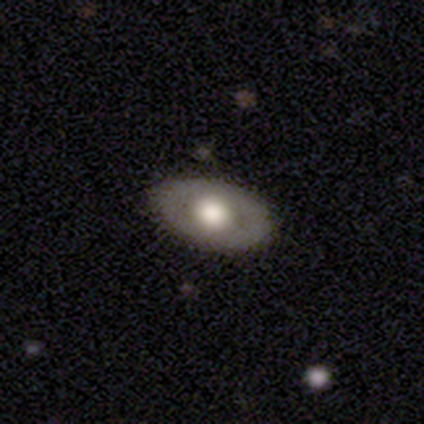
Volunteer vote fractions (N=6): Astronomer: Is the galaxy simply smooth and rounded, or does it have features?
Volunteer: smooth — 50% (runner-up: featured or disk, 33%).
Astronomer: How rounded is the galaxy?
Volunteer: in between — 100%.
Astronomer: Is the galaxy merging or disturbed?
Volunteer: none — 80%.